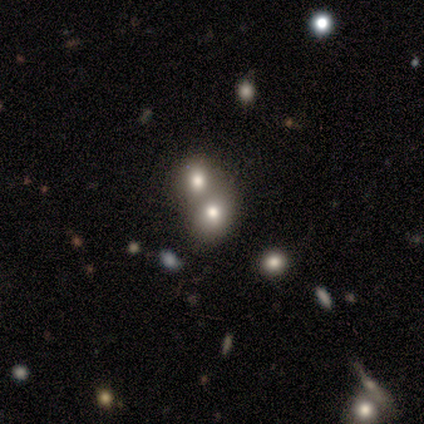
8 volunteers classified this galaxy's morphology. Smooth or featured? smooth (75%)
How rounded? round (83%)
Merging? merger (75%)